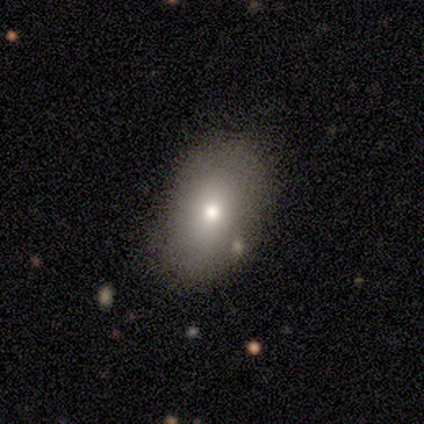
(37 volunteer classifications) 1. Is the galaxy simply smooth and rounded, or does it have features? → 70% smooth, 19% featured or disk, 11% star or artifact.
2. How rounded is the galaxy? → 92% in between, 8% round, 0% cigar-shaped.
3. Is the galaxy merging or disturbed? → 76% none, 12% minor disturbance, 6% major disturbance, 6% merger.